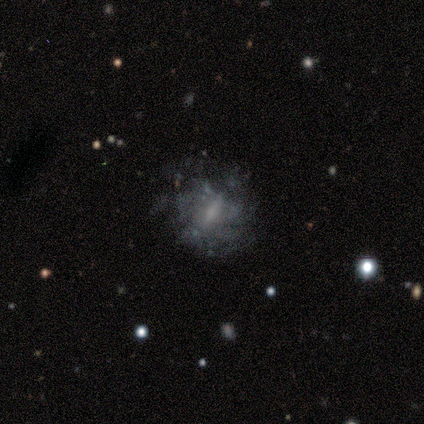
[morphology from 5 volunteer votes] Smooth or featured: featured or disk — 80% (smooth — 20%)
Edge-on disk: no — 100%
Bar: weak — 50% (strong — 25%)
Spiral arms: yes — 75% (no — 25%)
Spiral winding: tight — 33% (tied with medium — 33%; loose — 33%)
Spiral arm count: can't tell — 67% (3 — 33%)
Bulge size: moderate — 50% (tied with small — 50%)
Merging: none — 60% (minor disturbance — 40%)